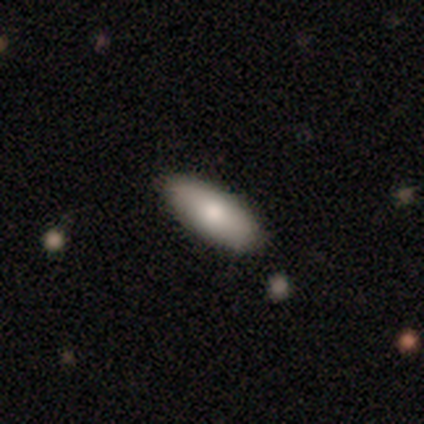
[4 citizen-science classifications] Overall: smooth (75%). How rounded: in between (100%). Merging: none (100%).